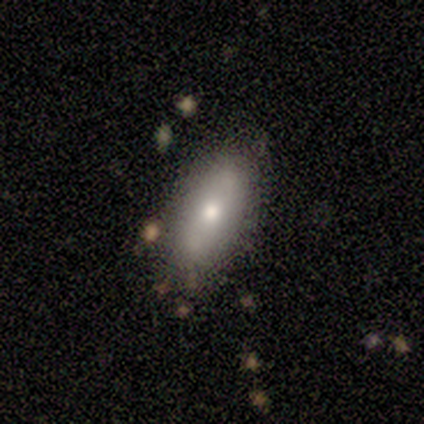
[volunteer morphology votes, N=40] Q: Smooth or featured?
A: smooth (68%); runner-up: featured or disk (25%)
Q: How rounded?
A: in between (74%); runner-up: cigar-shaped (26%)
Q: Merging?
A: none (76%); runner-up: minor disturbance (24%)